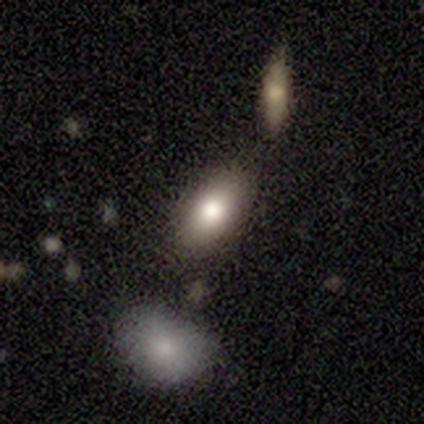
Smooth or featured: smooth — 75% (featured or disk — 12%)
How rounded: in between — 97% (cigar-shaped — 3%)
Merging: none — 74% (minor disturbance — 17%)